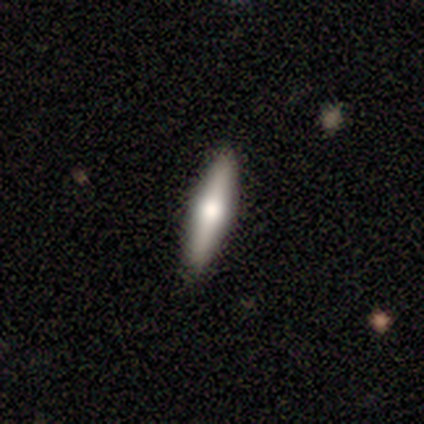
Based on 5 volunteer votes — smooth_or_featured: smooth (p=0.80) [alt: featured or disk p=0.20]
how_rounded: cigar-shaped (p=1.00)
merging: none (p=1.00)